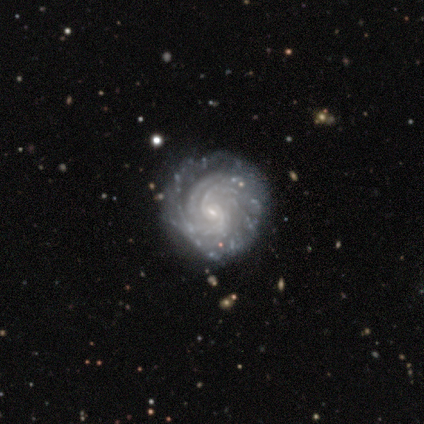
Overall: featured or disk (95%). Edge-on disk: no (92%). Bar: weak (47%; no 38%). Spiral arms: yes (100%). Spiral arm count: can't tell (32%; 2 29%). Spiral winding: tight (74%). Bulge size: small (79%). Merging: none (77%).